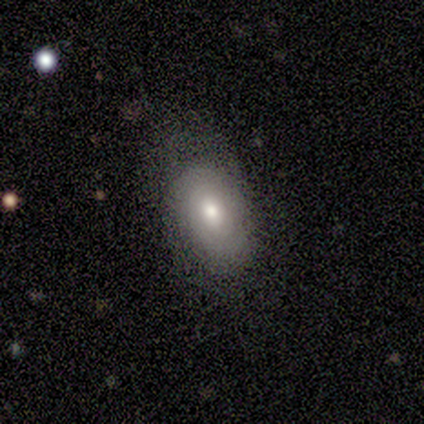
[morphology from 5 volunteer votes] Smooth or featured: smooth — 60% (featured or disk — 40%)
How rounded: in between — 67% (round — 33%)
Merging: none — 60% (minor disturbance — 40%)